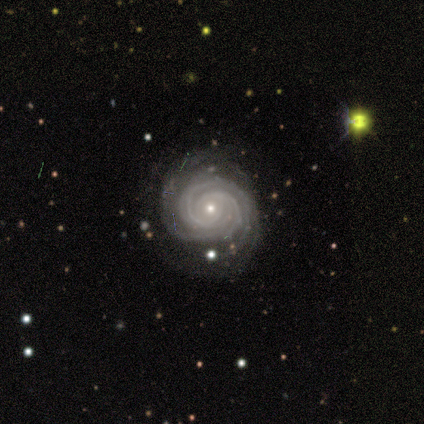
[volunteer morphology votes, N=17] featured or disk 100%, smooth 0%, star or artifact 0%. Down the decision tree: edge-on disk — no (100%); bar — no (88%); spiral arms — yes (100%); spiral arm count — 3 (47%); spiral winding — tight (76%); bulge size — small (82%); merging — none (82%).